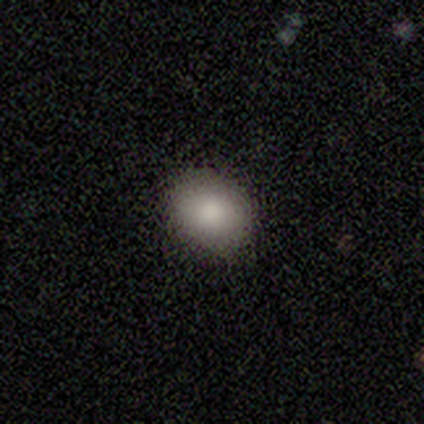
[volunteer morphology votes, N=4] smooth_or_featured: smooth (p=0.75) [alt: featured or disk p=0.25]
how_rounded: in between (p=0.67) [alt: round p=0.33]
merging: none (p=0.50) [alt: minor disturbance p=0.25]